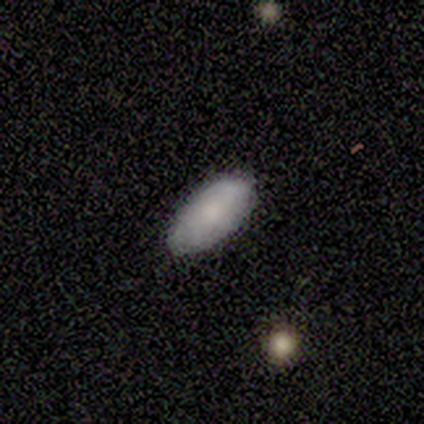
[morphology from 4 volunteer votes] Overall: smooth (75%). How rounded: in between (100%). Merging: none (75%).